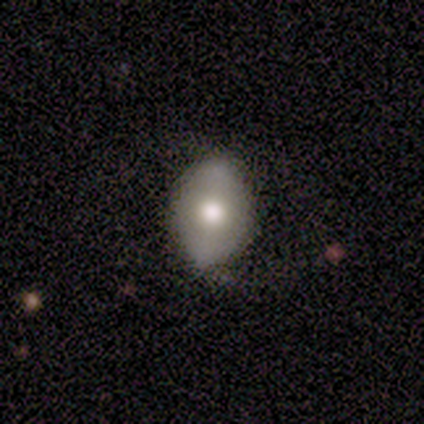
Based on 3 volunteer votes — Smooth or featured? featured or disk (67%)
Edge-on disk? no (100%)
Bar? no (100%)
Spiral arms? no (100%)
Bulge size? large (100%)
Merging? none (100%)